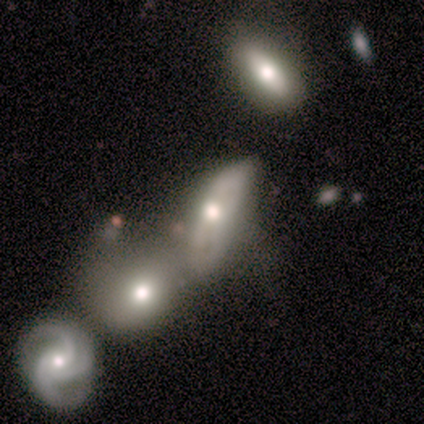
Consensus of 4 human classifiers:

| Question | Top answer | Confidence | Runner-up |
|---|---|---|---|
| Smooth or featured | featured or disk | 75% | star or artifact (25%) |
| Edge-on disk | no | 100% | — |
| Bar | no | 100% | — |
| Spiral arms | no | 67% | yes (33%) |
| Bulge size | moderate | 67% | large (33%) |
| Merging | merger | 67% | none (33%) |